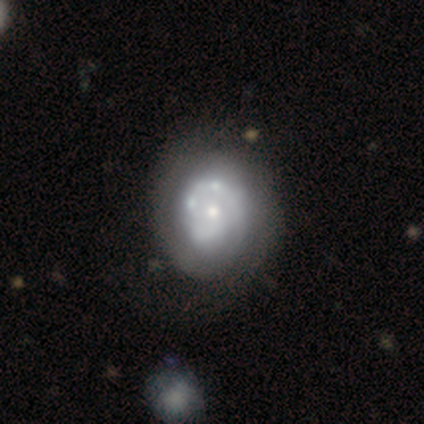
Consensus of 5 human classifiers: This is clearly a featured or disk galaxy (80%). It is clearly not viewed edge-on (100%). Bar: possibly no (50%). Spiral arm pattern: likely no (75%). Central bulge: possibly moderate (50%, tied with small). Merging: marginally none (40%, tied with minor disturbance).